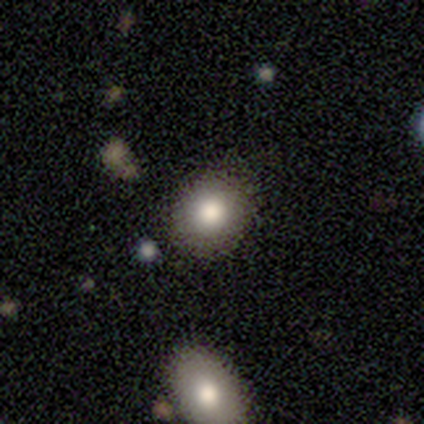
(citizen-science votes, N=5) Q: Smooth or featured?
A: smooth (100%)
Q: How rounded?
A: round (100%)
Q: Merging?
A: none (80%); runner-up: merger (20%)